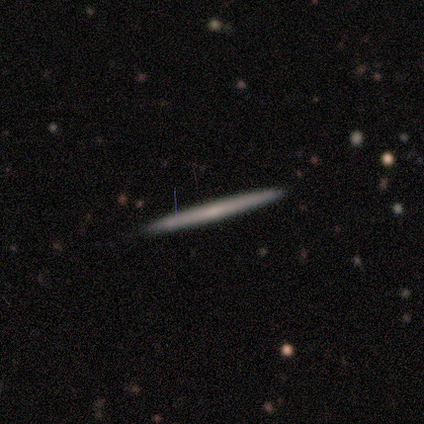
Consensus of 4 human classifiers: Q: Smooth or featured?
A: featured or disk (50%); runner-up: smooth (25%)
Q: Edge-on disk?
A: yes (100%)
Q: Edge-on bulge?
A: none (50%); tied with: rounded (50%)
Q: Merging?
A: none (100%)